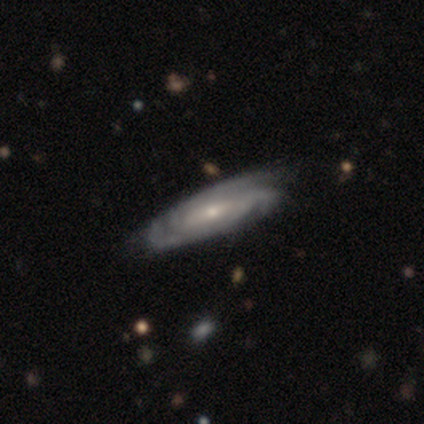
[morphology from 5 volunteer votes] Q: Smooth or featured?
A: featured or disk (60%); runner-up: smooth (20%)
Q: Edge-on disk?
A: no (100%)
Q: Bar?
A: no (67%); runner-up: weak (33%)
Q: Spiral arms?
A: yes (100%)
Q: Spiral winding?
A: tight (67%); runner-up: medium (33%)
Q: Spiral arm count?
A: 3 (67%); runner-up: can't tell (33%)
Q: Bulge size?
A: small (67%); runner-up: moderate (33%)
Q: Merging?
A: none (50%); runner-up: minor disturbance (25%)